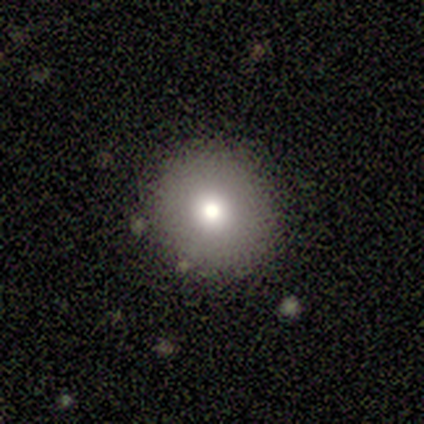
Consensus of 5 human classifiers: smooth_or_featured: smooth (p=0.60) [alt: featured or disk p=0.20]
how_rounded: round (p=1.00)
merging: none (p=1.00)